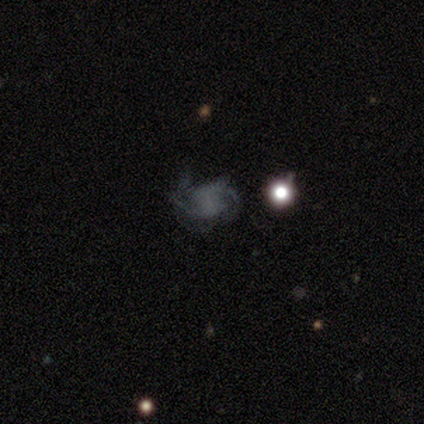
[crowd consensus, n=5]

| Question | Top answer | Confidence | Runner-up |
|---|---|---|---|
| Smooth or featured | featured or disk | 80% | star or artifact (20%) |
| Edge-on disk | no | 100% | — |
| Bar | weak | 50% | strong (25%) |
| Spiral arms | yes | 100% | — |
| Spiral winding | loose | 50% | tight (25%) |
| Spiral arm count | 2 | 50% | more than 4 (25%) |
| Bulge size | none | 75% | dominant (25%) |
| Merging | minor disturbance | 50% | none (25%) |